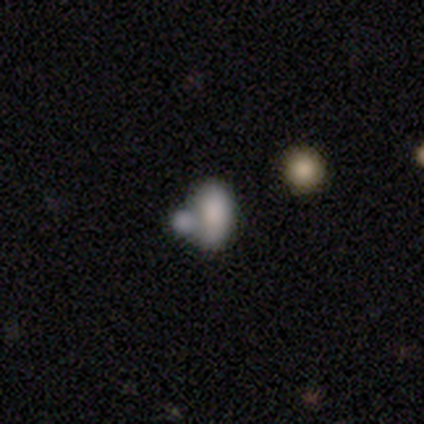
Smooth or featured: smooth — 60% (featured or disk — 20%)
How rounded: in between — 100%
Merging: none — 50% (minor disturbance — 25%)